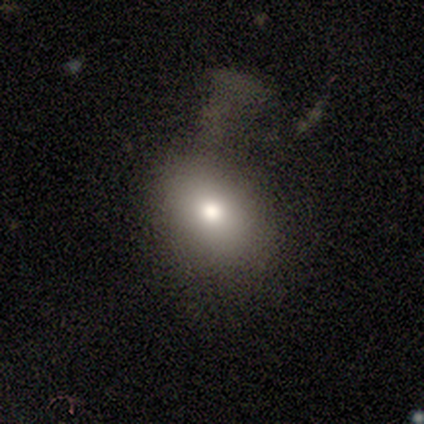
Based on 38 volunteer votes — Smooth or featured? 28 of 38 (74%) said smooth. How rounded? 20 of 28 (71%) said in between. Merging? 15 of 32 (47%) said major disturbance.